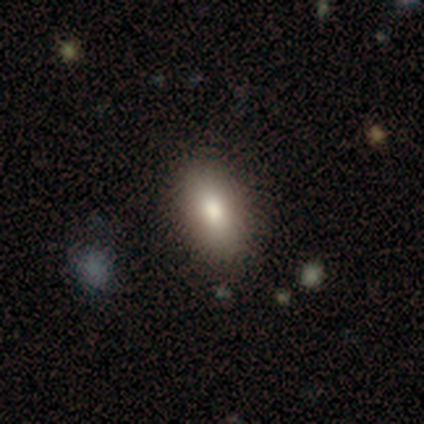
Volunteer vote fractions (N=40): Q: Smooth or featured?
A: smooth (88%); runner-up: featured or disk (8%)
Q: How rounded?
A: in between (89%); runner-up: cigar-shaped (11%)
Q: Merging?
A: none (55%); runner-up: minor disturbance (8%)